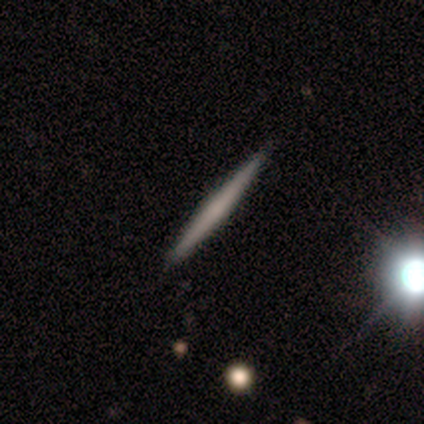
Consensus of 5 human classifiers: featured or disk 60%, smooth 40%, star or artifact 0%. Down the decision tree: edge-on disk — yes (100%); edge-on bulge — none (67%); merging — none (100%).